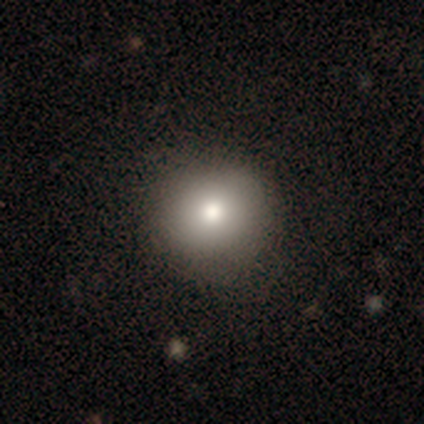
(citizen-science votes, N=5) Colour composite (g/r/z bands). It shows a smooth galaxy with no disk features (100%) that is round (80%). Merging: none (100%).